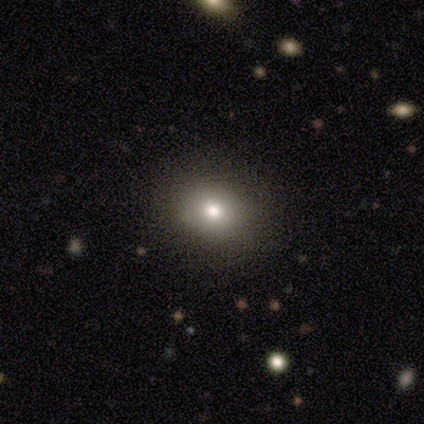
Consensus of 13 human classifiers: Volunteers were most divided on "how rounded": in between: 70%, round: 30%, cigar-shaped: 0%. More confident: merging — none (92%); smooth or featured — smooth (77%).